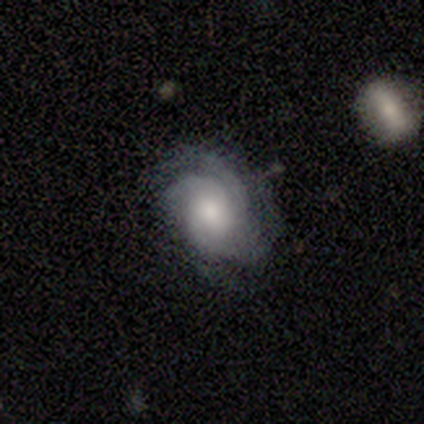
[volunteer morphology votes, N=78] type=featured or disk (87%); edge-on=no (97%); bar=no (73%); spiral arms=yes (97%); winding=tight (58%); arm count=3 (44%); bulge=moderate (53%); merging=none (42%).